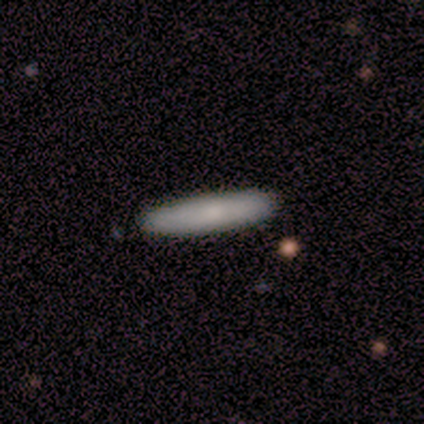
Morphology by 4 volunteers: Overall: smooth (75%). How rounded: cigar-shaped (100%). Merging: none (100%).